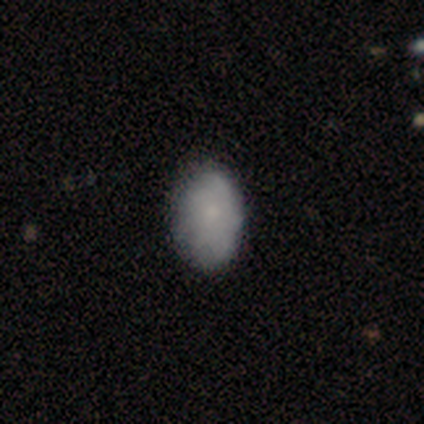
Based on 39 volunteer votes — smooth 79%, featured or disk 15%, star or artifact 5%. Down the decision tree: how rounded — in between (94%); merging — none (86%).